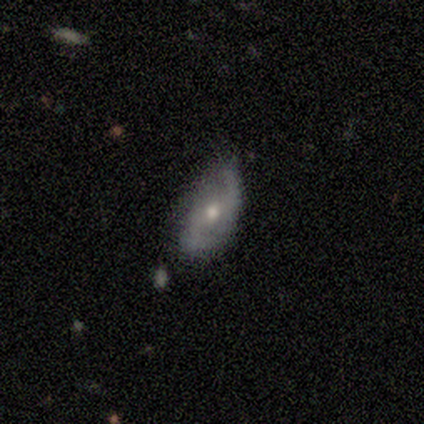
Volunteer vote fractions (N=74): Overall: featured or disk (76%). Edge-on disk: no (96%). Bar: no (52%; weak 41%). Spiral arms: yes (87%). Spiral arm count: 2 (87%). Spiral winding: medium (40%; loose 36%). Bulge size: moderate (72%). Merging: none (59%; minor disturbance 31%).